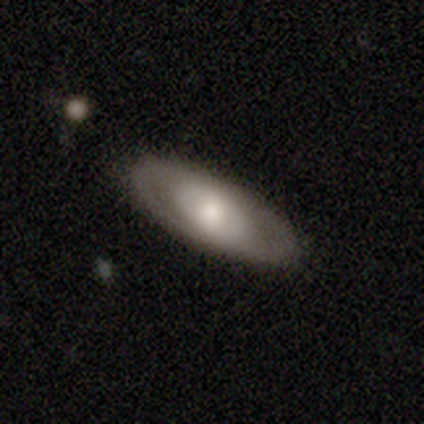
featured or disk 56%, smooth 40%, star or artifact 5%. Down the decision tree: edge-on disk — no (78%); bar — no (79%); spiral arms — no (79%); bulge size — moderate (53%); merging — none (87%).